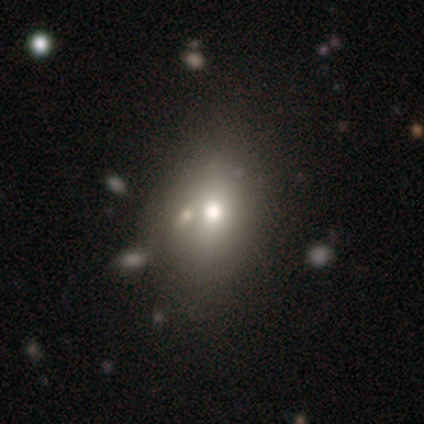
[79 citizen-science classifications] Volunteers were most divided on "merging": none: 34%, merger: 19%, minor disturbance: 7%, major disturbance: 3%. More confident: how rounded — in between (70%); smooth or featured — smooth (68%).